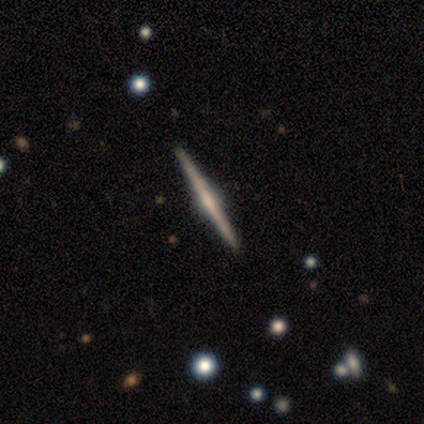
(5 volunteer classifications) Overall: featured or disk (80%). Edge-on disk: yes (100%). Edge-on bulge: rounded (75%). Merging: none (100%).